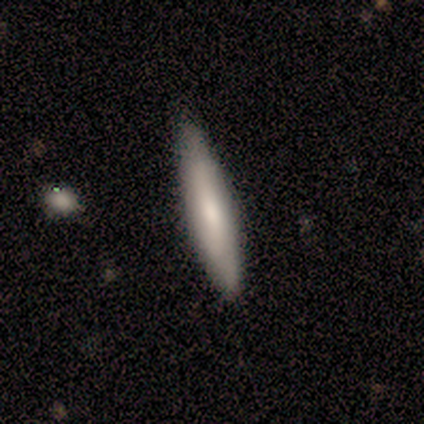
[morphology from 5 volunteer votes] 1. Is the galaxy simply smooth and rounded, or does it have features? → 60% featured or disk, 40% smooth, 0% star or artifact.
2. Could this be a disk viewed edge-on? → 100% yes, 0% no.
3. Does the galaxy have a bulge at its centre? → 67% none, 33% rounded, 0% boxy.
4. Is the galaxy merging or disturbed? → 80% none, 20% minor disturbance, 0% major disturbance, 0% merger.